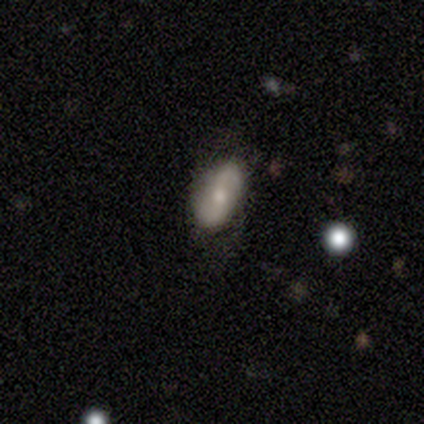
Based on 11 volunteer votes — A smooth galaxy with no disk features (64%) that is in between round and cigar-shaped (100%). Merging: none (73%).